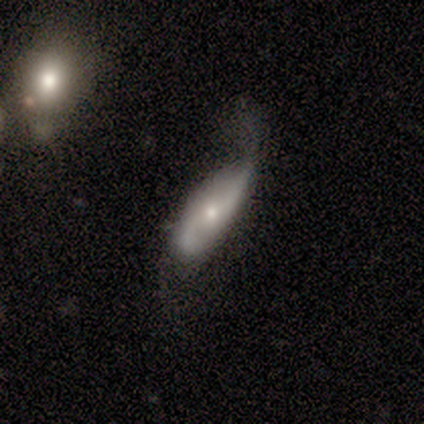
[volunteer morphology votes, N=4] A featured or disk galaxy (75%) with no bar (67%), 2 (100%) loose (100%) spiral arms (100%) and a large central bulge (33%, tied with moderate and small). Merging: minor disturbance (75%).